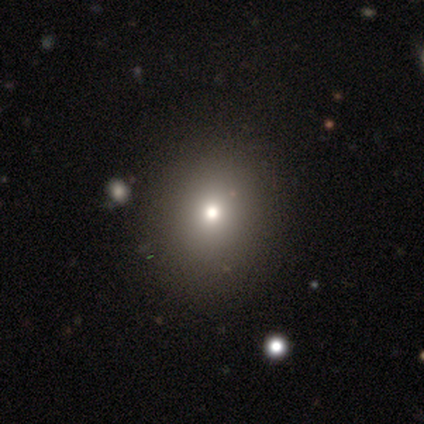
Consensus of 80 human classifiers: A smooth galaxy with no disk features (78%) that is round (77%).

Vote fractions:
- Smooth or featured? smooth: 78% / star or artifact: 15% / featured or disk: 8%
- How rounded? round: 77% / in between: 23% / cigar-shaped: 0%
- Merging? none: 54% / minor disturbance: 6% / merger: 6% / major disturbance: 0%